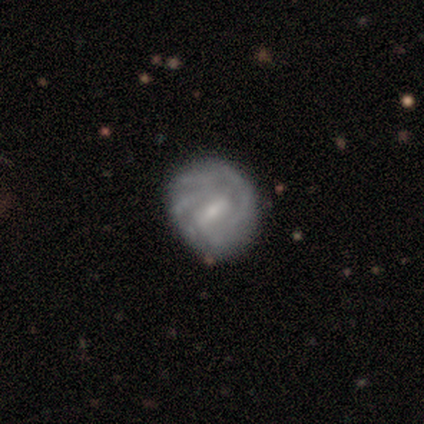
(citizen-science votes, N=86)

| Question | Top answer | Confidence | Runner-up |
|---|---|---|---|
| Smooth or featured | featured or disk | 79% | smooth (17%) |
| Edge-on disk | no | 99% | yes (1%) |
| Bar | weak | 63% | strong (25%) |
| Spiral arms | yes | 90% | no (10%) |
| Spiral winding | tight | 65% | medium (32%) |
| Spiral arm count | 2 | 33% | tied: can't tell (33%) |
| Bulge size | small | 64% | moderate (34%) |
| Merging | none | 72% | minor disturbance (23%) |